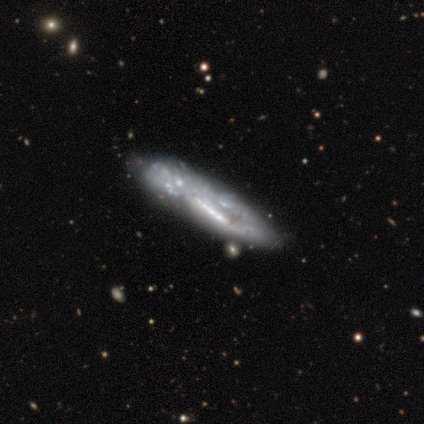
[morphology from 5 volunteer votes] Smooth or featured: featured or disk — 60% (smooth — 40%)
Edge-on disk: no — 100%
Bar: strong — 67% (no — 33%)
Spiral arms: yes — 67% (no — 33%)
Spiral winding: medium — 100%
Spiral arm count: 2 — 50% (tied with can't tell — 50%)
Bulge size: none — 67% (small — 33%)
Merging: none — 40% (tied with major disturbance — 40%)